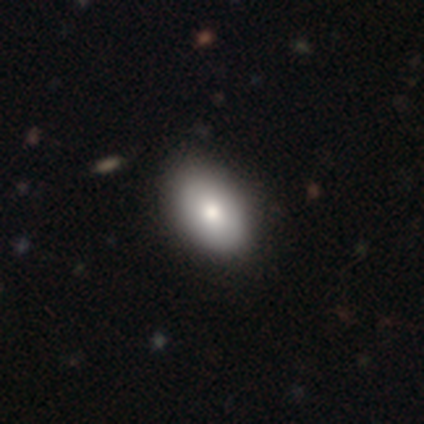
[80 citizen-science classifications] Smooth or featured: smooth — 81% (featured or disk — 19%)
How rounded: in between — 95% (round — 5%)
Merging: none — 45% (minor disturbance — 5%)